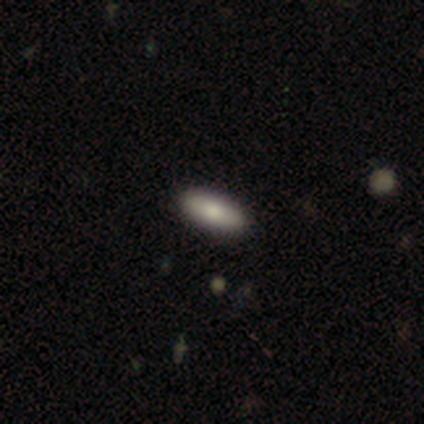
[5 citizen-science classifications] This appears to be a smooth galaxy with no disk features (40%, tied with featured or disk) that is in between round and cigar-shaped (100%). Merging: none (100%).